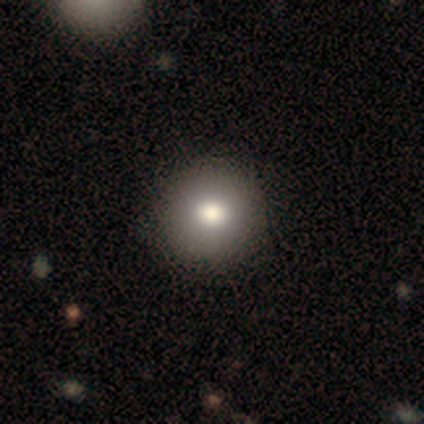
This is likely a smooth galaxy (67%). How rounded: possibly round (50%, tied with in between). Merging: clearly none (100%).